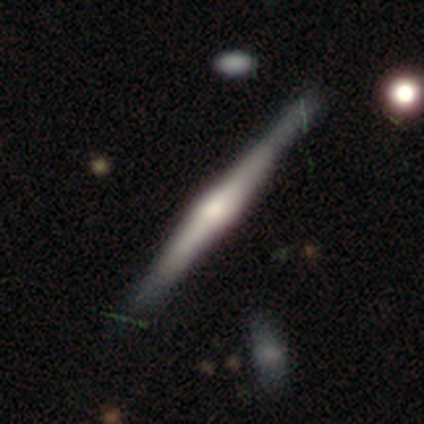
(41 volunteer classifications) Volunteers were most divided on "merging": none: 64%, minor disturbance: 10%, major disturbance: 3%, merger: 0%. More confident: edge-on disk — yes (100%); smooth or featured — featured or disk (83%); edge-on bulge — rounded (82%).